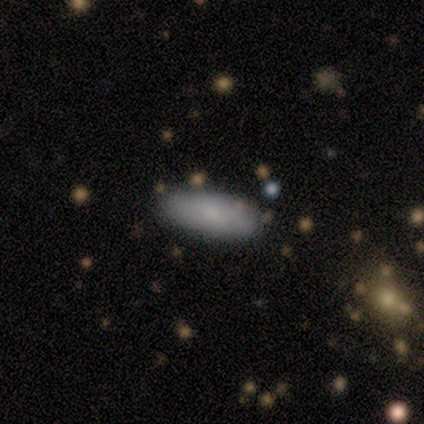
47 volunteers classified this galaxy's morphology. type=smooth (94%); roundness=in between (77%); merging=none (80%).